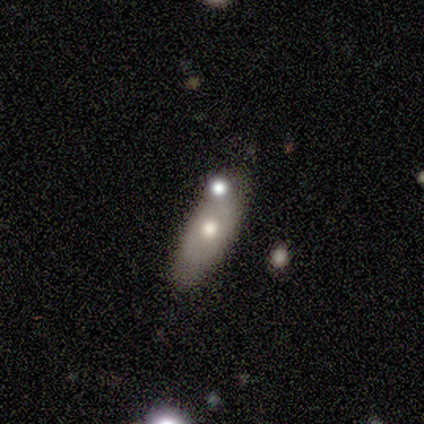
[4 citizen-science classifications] Smooth or featured? 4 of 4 (100%) said smooth. How rounded? 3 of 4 (75%) said in between. Merging? 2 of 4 (50%, tied with minor disturbance) said none.